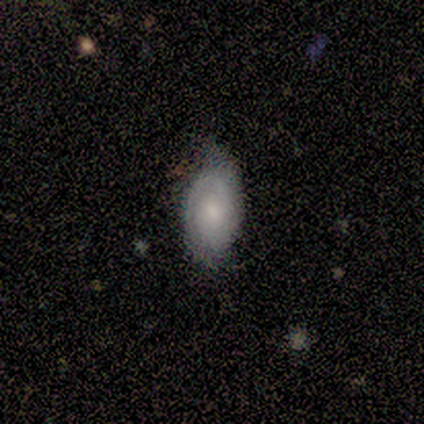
smooth_or_featured: smooth (p=0.50) [tied with: featured or disk p=0.50]
how_rounded: in between (p=1.00)
merging: minor disturbance (p=0.50) [alt: none p=0.25]